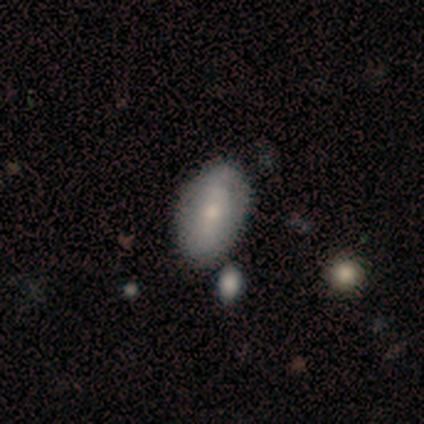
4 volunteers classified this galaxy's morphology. Smooth or featured? 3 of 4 (75%) said smooth. How rounded? 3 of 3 (100%) said in between. Merging? 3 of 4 (75%) said none.